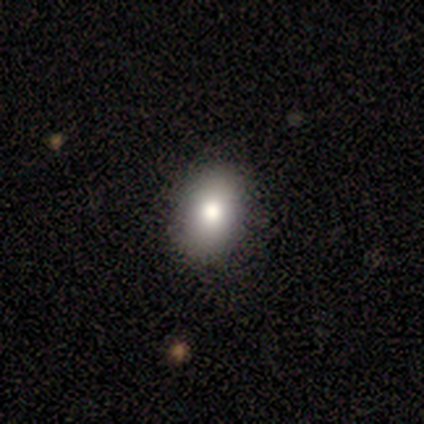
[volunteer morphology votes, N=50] smooth-or-featured: smooth: 84% | featured or disk: 12% | star or artifact: 4%
  how-rounded: in between: 81% | round: 19% | cigar-shaped: 0%
  merging: none: 90% | minor disturbance: 10% | major disturbance: 0% | merger: 0%